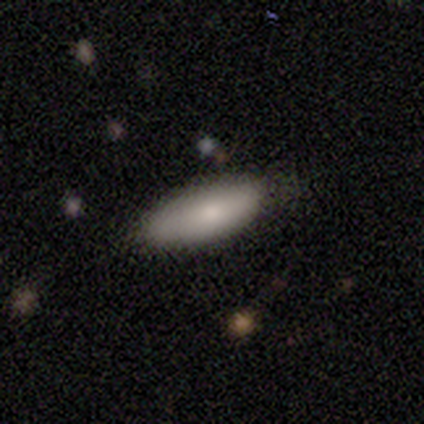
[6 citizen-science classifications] This appears to be a smooth galaxy with no disk features (100%) that is in between round and cigar-shaped (100%). Merging: none (67%).